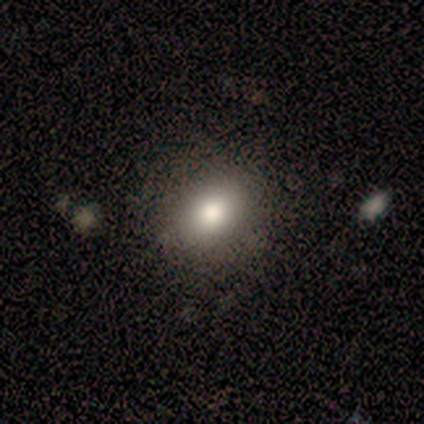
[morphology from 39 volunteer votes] A smooth galaxy with no disk features (74%) that is in between round and cigar-shaped (52%). Merging: none (81%).